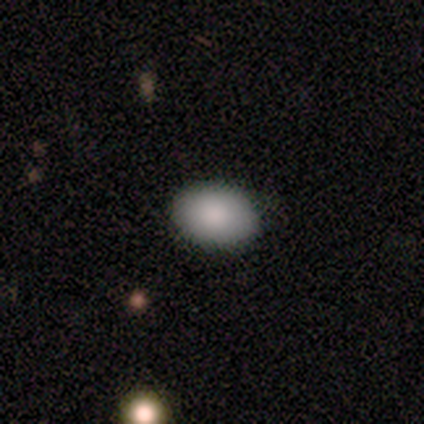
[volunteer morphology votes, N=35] Smooth or featured?
  - smooth: 89% *
  - star or artifact: 9%
  - featured or disk: 3%
How rounded?
  - in between: 90% *
  - round: 10%
  - cigar-shaped: 0%
Merging?
  - none: 78% *
  - minor disturbance: 22%
  - major disturbance: 0%
  - merger: 0%